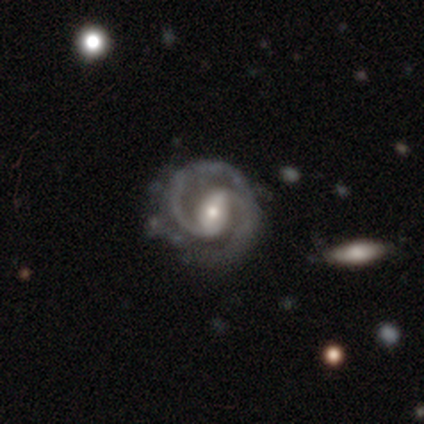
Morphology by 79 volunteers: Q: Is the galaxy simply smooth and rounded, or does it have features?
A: featured or disk — 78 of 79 (99%).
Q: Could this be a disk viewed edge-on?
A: no — 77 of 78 (99%).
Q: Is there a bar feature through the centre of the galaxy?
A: strong — 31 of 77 (40%, tied with weak).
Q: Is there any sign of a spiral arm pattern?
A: yes — 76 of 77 (99%).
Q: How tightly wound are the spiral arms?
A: medium — 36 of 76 (47%).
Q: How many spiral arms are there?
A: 2 — 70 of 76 (92%).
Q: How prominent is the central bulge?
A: moderate — 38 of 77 (49%).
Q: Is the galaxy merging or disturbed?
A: none — 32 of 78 (41%).